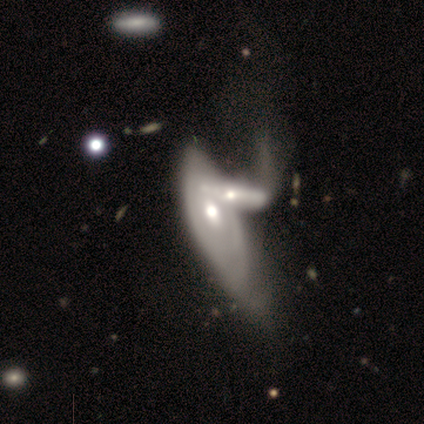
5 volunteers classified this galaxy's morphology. A featured or disk galaxy (60%) with no bar (100%), no spiral arms (100%) and a large central bulge (33%, tied with moderate and small). Merging: merger (60%).